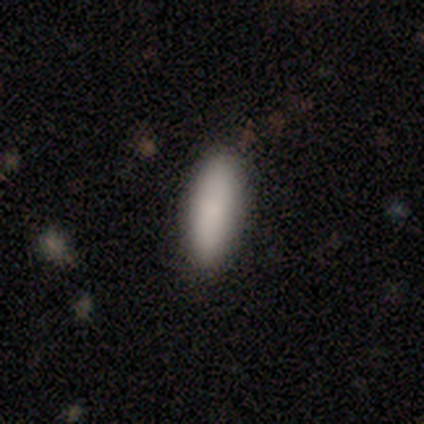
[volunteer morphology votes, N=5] Volunteers were most divided on "how rounded": cigar-shaped: 75%, in between: 25%, round: 0%. More confident: smooth or featured — smooth (80%); merging — none (75%).